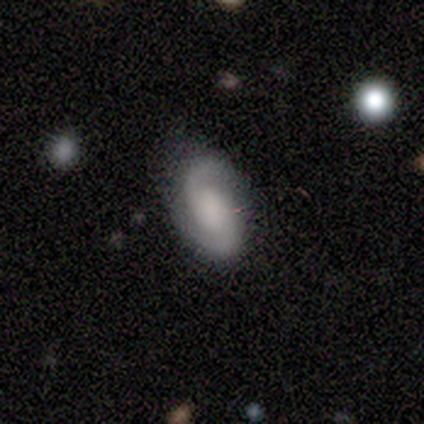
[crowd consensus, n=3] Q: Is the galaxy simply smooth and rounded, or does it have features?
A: featured or disk — 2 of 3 (67%).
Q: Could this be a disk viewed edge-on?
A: no — 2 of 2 (100%).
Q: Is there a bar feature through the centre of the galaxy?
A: weak — 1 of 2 (50%, tied with no).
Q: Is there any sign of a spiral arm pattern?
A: yes — 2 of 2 (100%).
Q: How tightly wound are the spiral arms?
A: medium — 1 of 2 (50%, tied with loose).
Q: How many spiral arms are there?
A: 2 — 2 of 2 (100%).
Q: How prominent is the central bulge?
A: none — 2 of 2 (100%).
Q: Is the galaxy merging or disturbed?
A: none — 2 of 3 (67%).